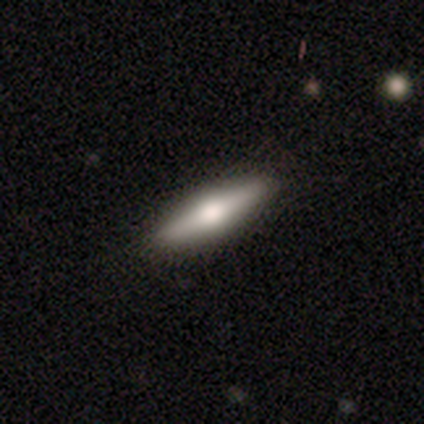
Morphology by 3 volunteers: type=featured or disk (67%); edge-on=yes (100%); edge-on bulge=none (50%, tied with rounded); merging=none (67%).